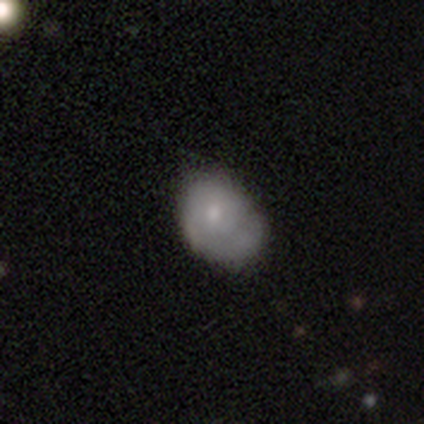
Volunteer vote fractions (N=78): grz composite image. It shows a smooth galaxy with no disk features (64%) that is in between round and cigar-shaped (70%). Merging: none (26%).